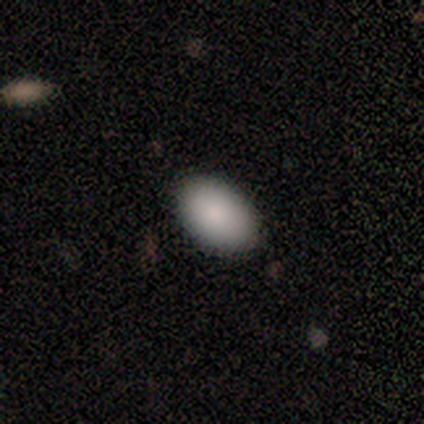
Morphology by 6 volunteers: A smooth galaxy with no disk features (100%) that is in between round and cigar-shaped (100%). Merging: none (100%).